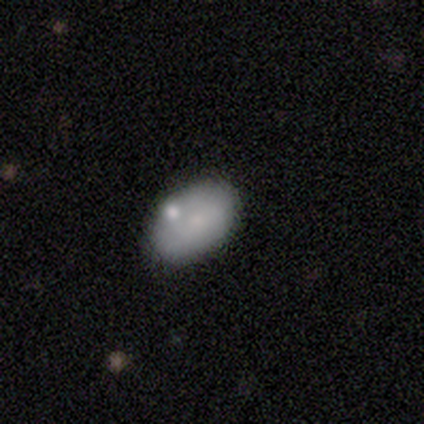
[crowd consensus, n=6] smooth_or_featured: smooth (p=0.83) [alt: featured or disk p=0.17]
how_rounded: in between (p=0.80) [alt: round p=0.20]
merging: none (p=0.67) [alt: minor disturbance p=0.17]